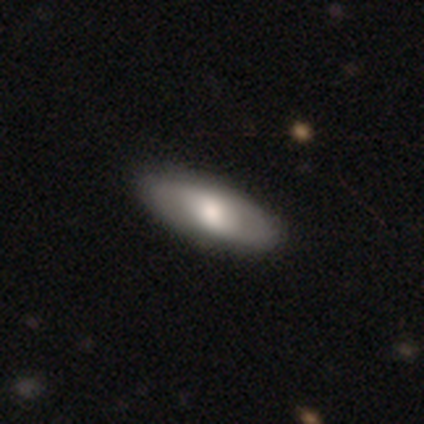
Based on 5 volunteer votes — Q: Smooth or featured?
A: featured or disk (80%); runner-up: star or artifact (20%)
Q: Edge-on disk?
A: no (100%)
Q: Bar?
A: strong (50%); tied with: no (50%)
Q: Spiral arms?
A: yes (75%); runner-up: no (25%)
Q: Spiral winding?
A: tight (100%)
Q: Spiral arm count?
A: can't tell (67%); runner-up: 2 (33%)
Q: Bulge size?
A: large (50%); tied with: moderate (50%)
Q: Merging?
A: none (100%)